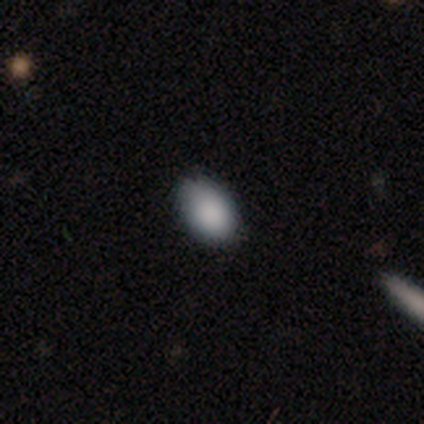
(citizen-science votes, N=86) Q: Smooth or featured?
A: smooth (85%); runner-up: star or artifact (12%)
Q: How rounded?
A: in between (95%); runner-up: round (5%)
Q: Merging?
A: none (80%); runner-up: minor disturbance (16%)